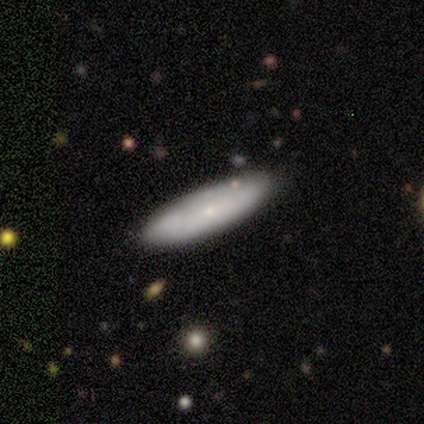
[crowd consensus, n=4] Smooth or featured: smooth — 75% (featured or disk — 25%)
How rounded: in between — 67% (cigar-shaped — 33%)
Merging: none — 100%